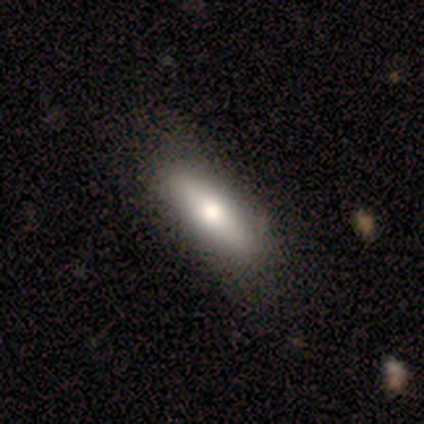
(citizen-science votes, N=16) smooth 88%, featured or disk 12%, star or artifact 0%. Down the decision tree: how rounded — in between (57%); merging — none (88%).